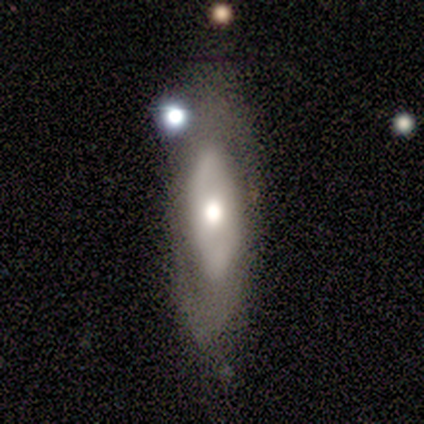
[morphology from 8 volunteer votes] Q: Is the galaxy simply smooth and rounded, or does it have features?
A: featured or disk — 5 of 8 (62%).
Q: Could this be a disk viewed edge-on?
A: no — 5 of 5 (100%).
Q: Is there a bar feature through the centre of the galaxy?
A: no — 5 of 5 (100%).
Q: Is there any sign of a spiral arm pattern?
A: no — 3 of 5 (60%).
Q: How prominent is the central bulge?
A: large — 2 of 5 (40%, tied with moderate).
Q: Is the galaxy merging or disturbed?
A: none — 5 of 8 (62%).